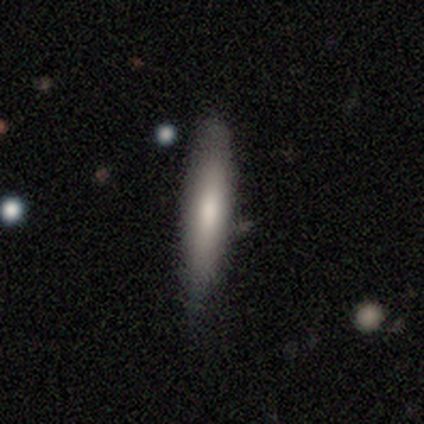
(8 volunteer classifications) This is likely a smooth galaxy (62%). How rounded: clearly cigar-shaped (100%). Merging: clearly none (86%).